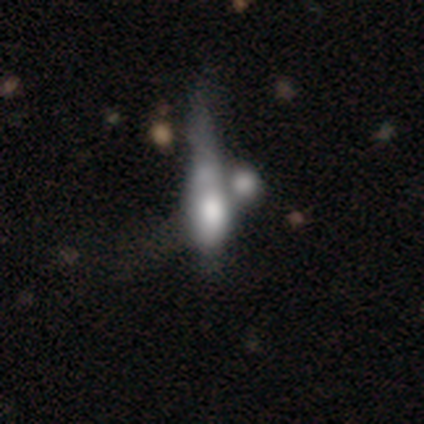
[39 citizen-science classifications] featured or disk 54%, smooth 41%, star or artifact 5%. Down the decision tree: edge-on disk — no (62%); bar — no (92%); spiral arms — no (100%); bulge size — large (31%); merging — merger (43%).